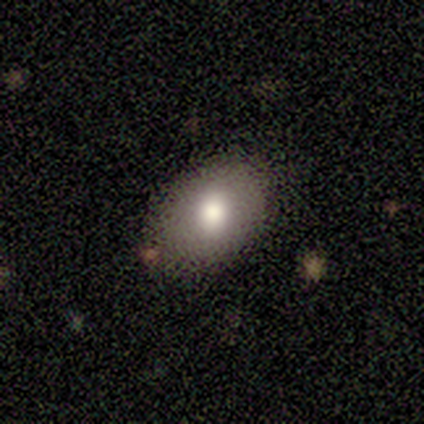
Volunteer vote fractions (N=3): Morphology: type=smooth (67%); roundness=round (50%, tied with in between); merging=none (100%).